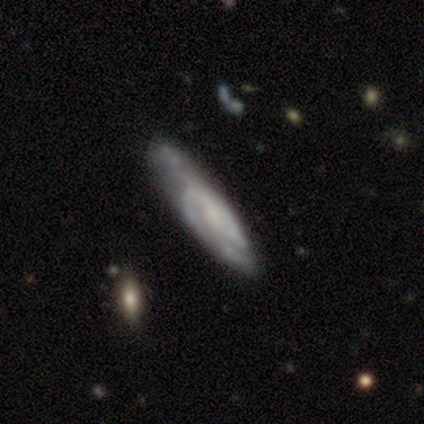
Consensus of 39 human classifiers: Q: Smooth or featured?
A: featured or disk (77%); runner-up: smooth (18%)
Q: Edge-on disk?
A: no (90%); runner-up: yes (10%)
Q: Bar?
A: no (67%); runner-up: weak (33%)
Q: Spiral arms?
A: yes (89%); runner-up: no (11%)
Q: Spiral winding?
A: tight (46%); runner-up: medium (42%)
Q: Spiral arm count?
A: can't tell (46%); runner-up: 2 (42%)
Q: Bulge size?
A: none (37%); runner-up: small (33%)
Q: Merging?
A: none (30%); runner-up: minor disturbance (22%)